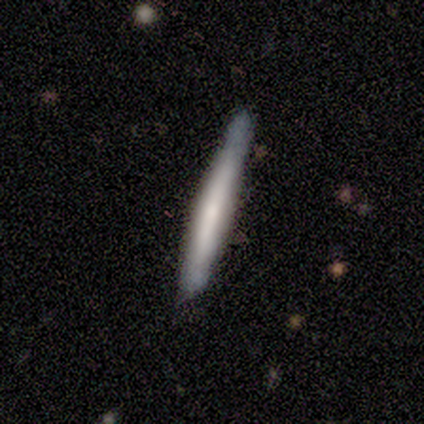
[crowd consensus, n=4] This appears to be a featured or disk galaxy (75%) viewed edge-on (100%) with no central bulge (67%). Merging: none (75%).